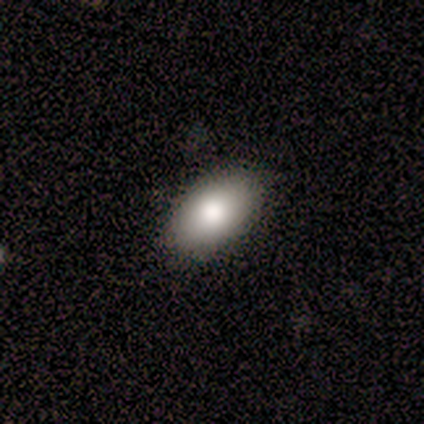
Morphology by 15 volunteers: Volunteers were most divided on "smooth or featured": smooth: 60%, featured or disk: 27%, star or artifact: 13%. More confident: merging — none (100%); how rounded — in between (89%).